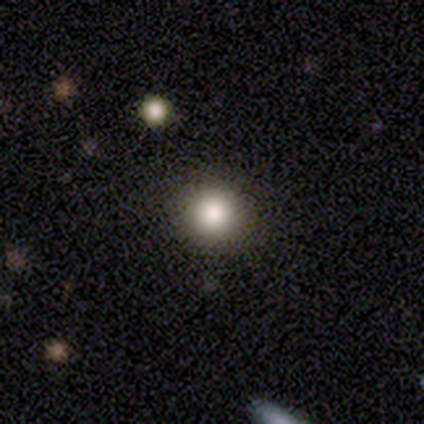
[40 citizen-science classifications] Smooth or featured? 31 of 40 (78%) said smooth. How rounded? 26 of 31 (84%) said round. Merging? 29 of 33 (88%) said none.